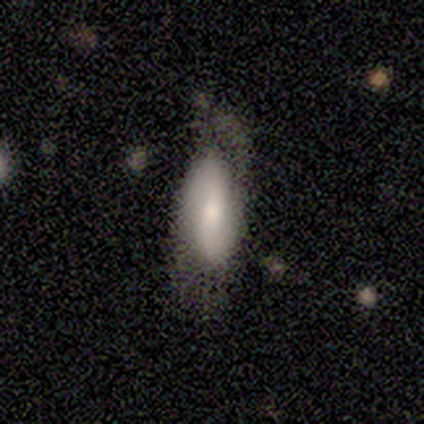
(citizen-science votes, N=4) Volunteers were most divided on "smooth or featured": smooth: 75%, featured or disk: 25%, star or artifact: 0%. More confident: how rounded — in between (100%); merging — major disturbance (75%).